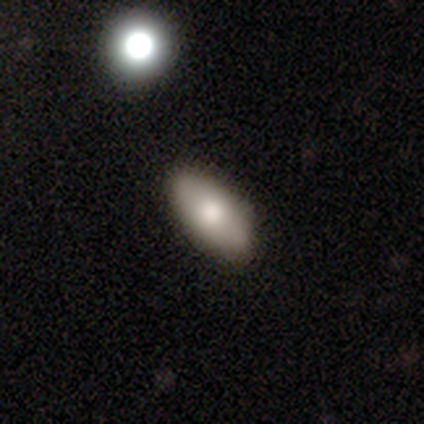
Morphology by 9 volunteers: type=smooth (67%); roundness=in between (100%); merging=none (100%).